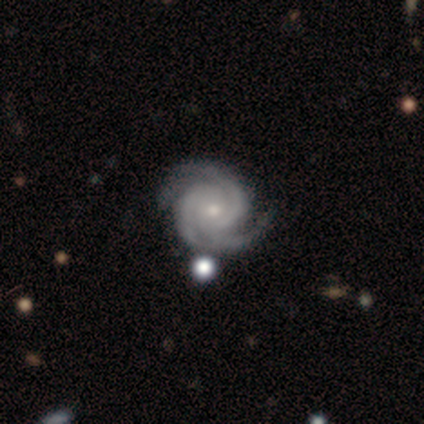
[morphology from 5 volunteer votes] Smooth or featured? featured or disk (100%)
Edge-on disk? no (100%)
Bar? no (60%)
Spiral arms? yes (100%)
Spiral winding? medium (60%)
Spiral arm count? 2 (60%)
Bulge size? small (60%)
Merging? none (100%)